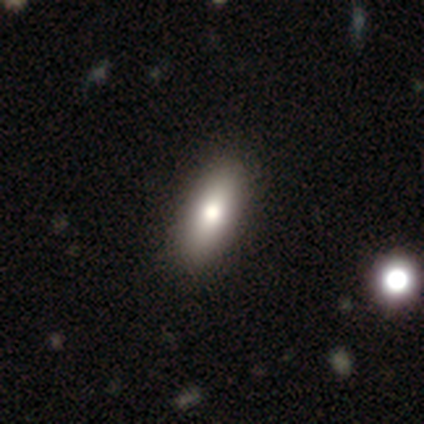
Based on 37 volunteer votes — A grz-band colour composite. It shows a smooth galaxy with no disk features (73%) that is in between round and cigar-shaped (74%). Merging: none (58%).